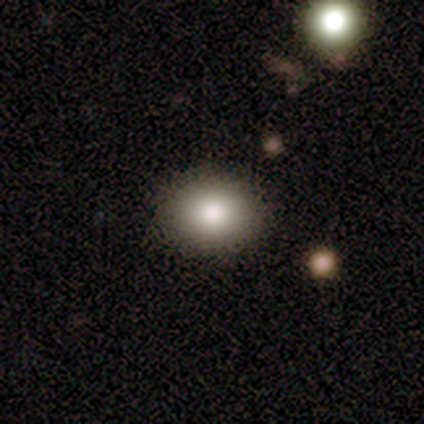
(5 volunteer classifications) Smooth or featured? smooth (100%)
How rounded? round (60%)
Merging? none (100%)